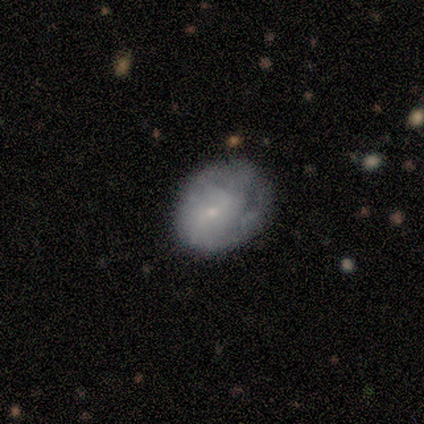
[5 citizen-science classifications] This is marginally a smooth galaxy (40%, tied with featured or disk). How rounded: possibly round (50%, tied with in between). Merging: clearly major disturbance (100%).